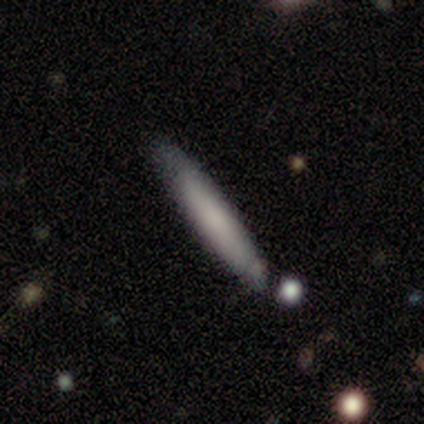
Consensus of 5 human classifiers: Smooth or featured? 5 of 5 (100%) said smooth. How rounded? 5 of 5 (100%) said cigar-shaped. Merging? 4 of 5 (80%) said none.